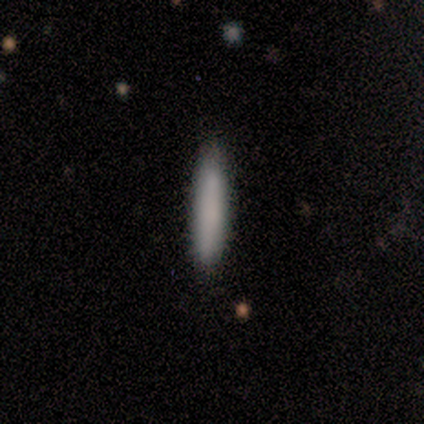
A smooth galaxy with no disk features (100%) that is cigar-shaped (100%).

Vote fractions:
- Smooth or featured? smooth: 100% / featured or disk: 0% / star or artifact: 0%
- How rounded? cigar-shaped: 100% / round: 0% / in between: 0%
- Merging? none: 100% / minor disturbance: 0% / major disturbance: 0% / merger: 0%